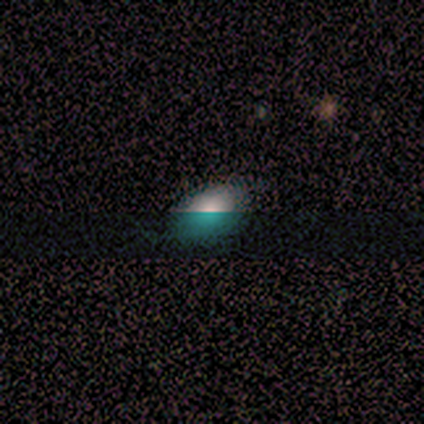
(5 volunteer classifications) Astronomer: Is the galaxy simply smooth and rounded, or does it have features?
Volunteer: smooth — 80%.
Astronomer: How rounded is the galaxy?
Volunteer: in between — 100%.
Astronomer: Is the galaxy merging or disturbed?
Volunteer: none — 100%.